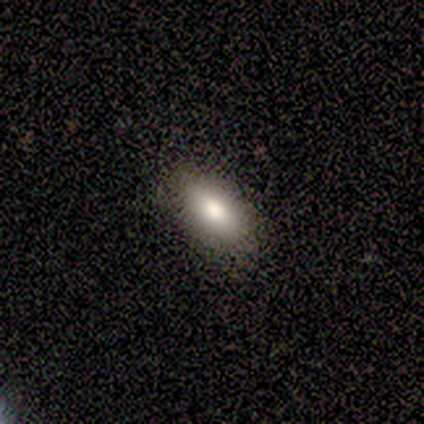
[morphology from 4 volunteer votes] Q: Smooth or featured?
A: smooth (50%); runner-up: featured or disk (25%)
Q: How rounded?
A: in between (100%)
Q: Merging?
A: none (100%)